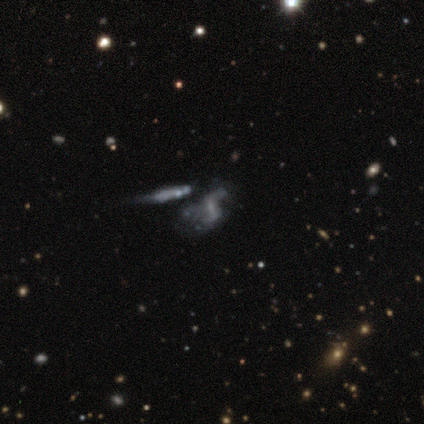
Smooth or featured? 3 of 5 (60%) said featured or disk. Edge-on disk? 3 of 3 (100%) said no. Bar? 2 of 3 (67%) said weak. Spiral arms? 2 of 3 (67%) said yes. Spiral winding? 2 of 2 (100%) said loose. Spiral arm count? 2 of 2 (100%) said 2. Bulge size? 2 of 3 (67%) said small. Merging? 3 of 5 (60%) said major disturbance.